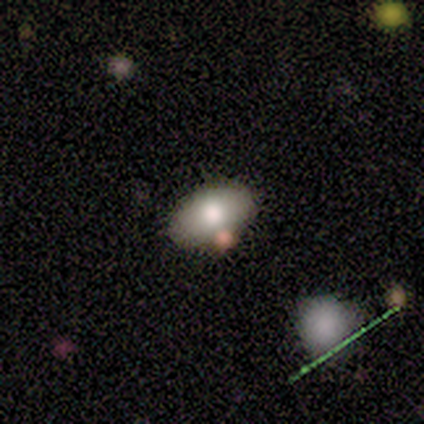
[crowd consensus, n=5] Smooth or featured?
  - smooth: 80% *
  - featured or disk: 20%
  - star or artifact: 0%
How rounded?
  - in between: 100% *
  - round: 0%
  - cigar-shaped: 0%
Merging?
  - none: 60% *
  - minor disturbance: 20%
  - merger: 20%
  - major disturbance: 0%